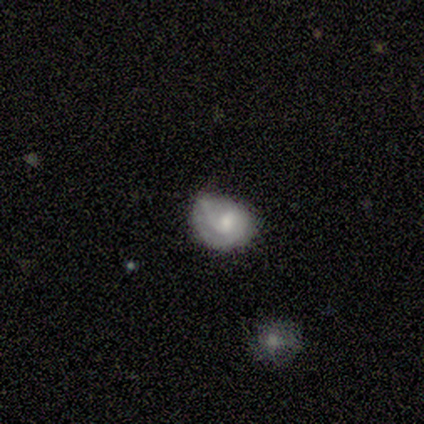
Smooth or featured: featured or disk — 60% (smooth — 20%)
Edge-on disk: no — 100%
Bar: no — 67% (weak — 33%)
Spiral arms: yes — 100%
Spiral winding: loose — 67% (tight — 33%)
Spiral arm count: 2 — 100%
Bulge size: dominant — 33% (tied with moderate — 33%; none — 33%)
Merging: none — 50% (tied with minor disturbance — 50%)